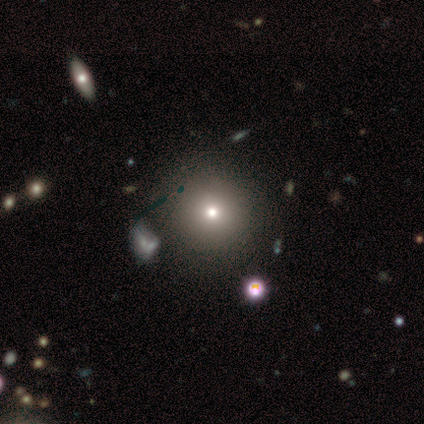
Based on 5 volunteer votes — Morphology: type=smooth (80%); roundness=round (100%); merging=none (75%).